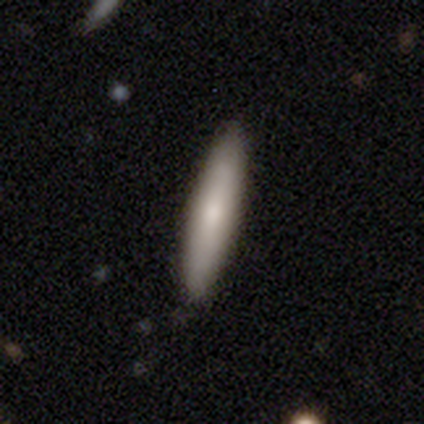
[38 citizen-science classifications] Smooth or featured? smooth (92%)
How rounded? cigar-shaped (89%)
Merging? none (100%)